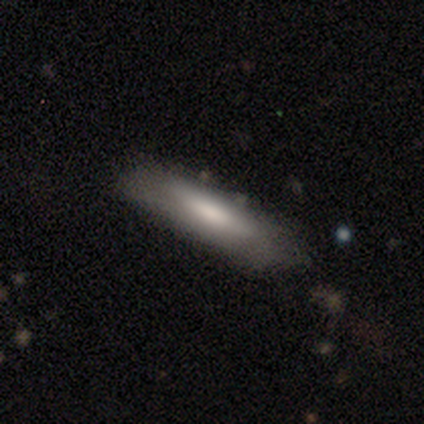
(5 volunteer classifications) This is clearly a smooth galaxy (80%). How rounded: clearly cigar-shaped (100%). Merging: clearly none (80%).